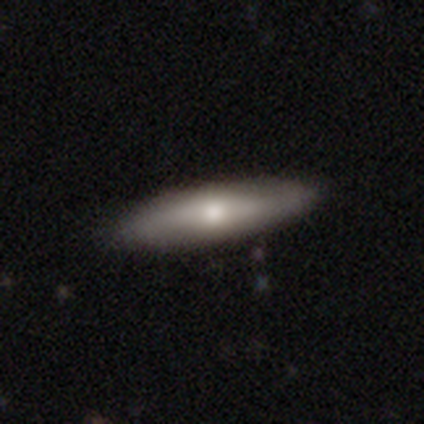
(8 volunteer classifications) Morphology: type=smooth (50%, tied with featured or disk); roundness=in between (50%, tied with cigar-shaped); merging=none (62%).